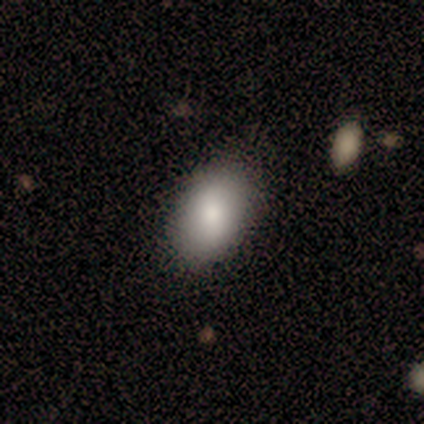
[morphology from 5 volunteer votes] Smooth or featured: smooth — 40% (tied with star or artifact — 40%)
How rounded: in between — 100%
Merging: none — 67% (major disturbance — 33%)